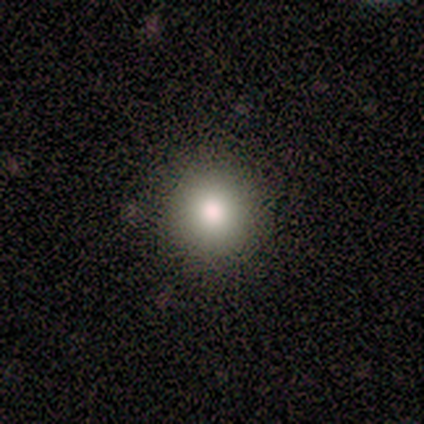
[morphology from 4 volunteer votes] Smooth or featured: smooth — 75% (star or artifact — 25%)
How rounded: round — 100%
Merging: none — 100%